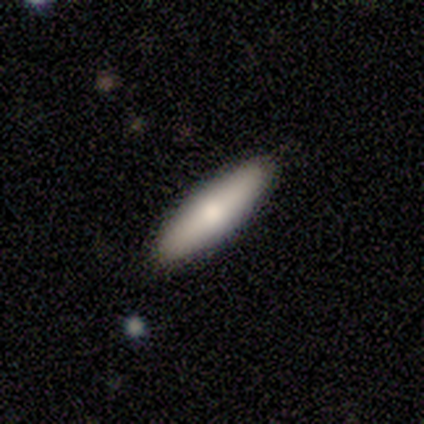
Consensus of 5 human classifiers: smooth 60%, featured or disk 40%, star or artifact 0%. Down the decision tree: how rounded — in between (67%); merging — none (100%).